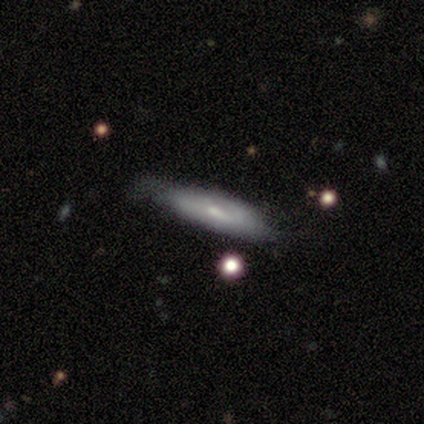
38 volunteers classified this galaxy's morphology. smooth_or_featured: featured or disk (p=0.50) [alt: smooth p=0.45]
disk_edge_on: yes (p=0.53) [alt: no p=0.47]
edge_on_bulge: rounded (p=0.60) [alt: none p=0.30]
merging: none (p=0.53) [alt: minor disturbance p=0.36]